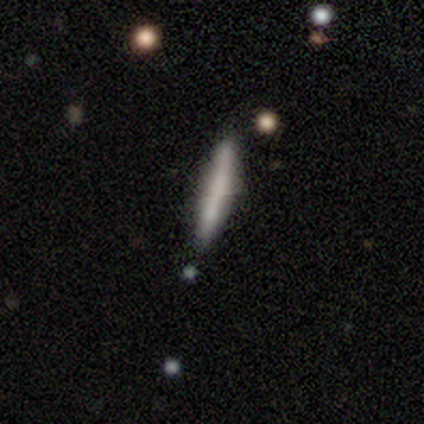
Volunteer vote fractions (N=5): This is marginally a smooth galaxy (40%, tied with featured or disk). How rounded: clearly cigar-shaped (100%). Merging: likely none (75%).